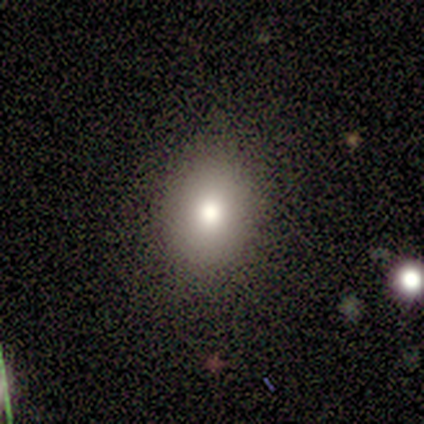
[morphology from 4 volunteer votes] Overall: smooth (100%). How rounded: round (50%, tied with in between). Merging: none (100%).